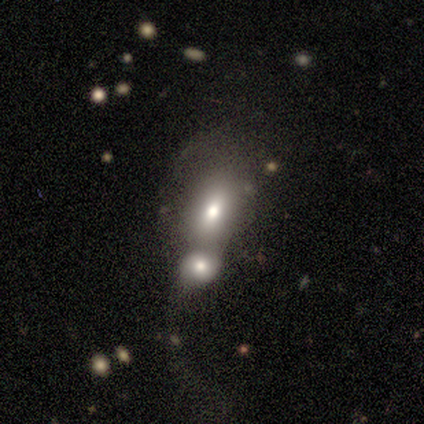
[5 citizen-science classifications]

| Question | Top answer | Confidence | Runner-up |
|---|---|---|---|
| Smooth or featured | smooth | 80% | featured or disk (20%) |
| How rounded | in between | 100% | — |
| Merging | merger | 60% | minor disturbance (20%) |